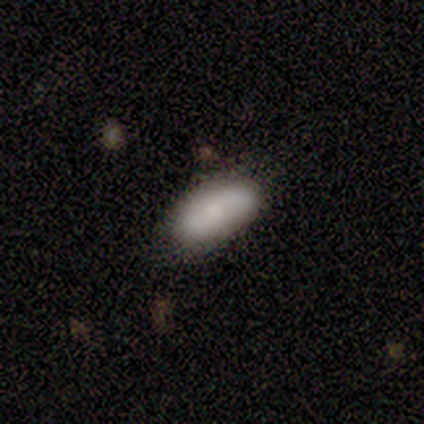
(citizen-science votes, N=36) Volunteers were most divided on "merging": none: 80%, minor disturbance: 14%, major disturbance: 3%, merger: 3%. More confident: how rounded — in between (90%); smooth or featured — smooth (86%).